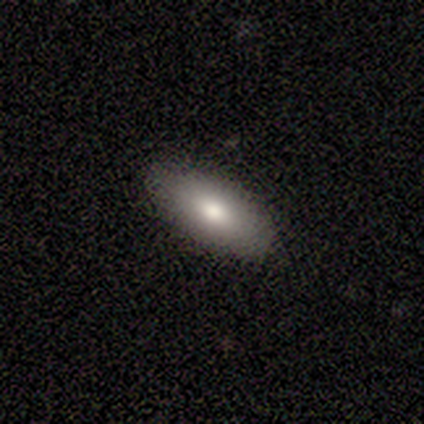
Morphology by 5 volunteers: Q: Smooth or featured?
A: smooth (80%); runner-up: featured or disk (20%)
Q: How rounded?
A: in between (75%); runner-up: cigar-shaped (25%)
Q: Merging?
A: none (100%)